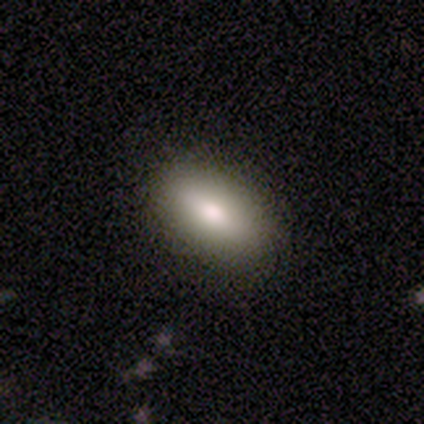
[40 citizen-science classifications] Overall: smooth (82%). How rounded: in between (94%). Merging: none (86%).